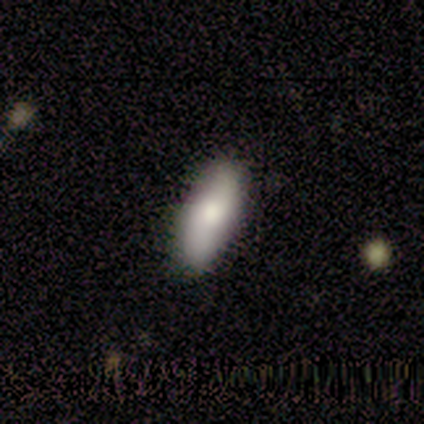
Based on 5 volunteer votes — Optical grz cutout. It shows a smooth galaxy with no disk features (80%) that is in between round and cigar-shaped (100%). Merging: none (80%).